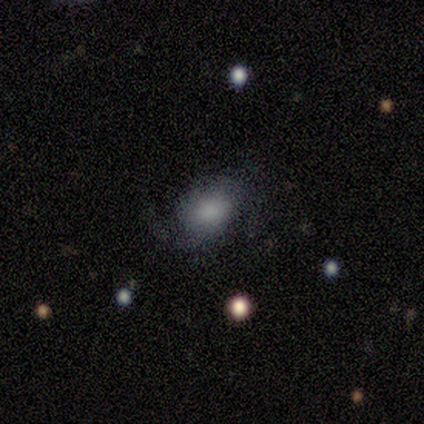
smooth_or_featured: smooth (p=0.60) [alt: featured or disk p=0.40]
how_rounded: in between (p=1.00)
merging: none (p=0.80) [alt: minor disturbance p=0.20]